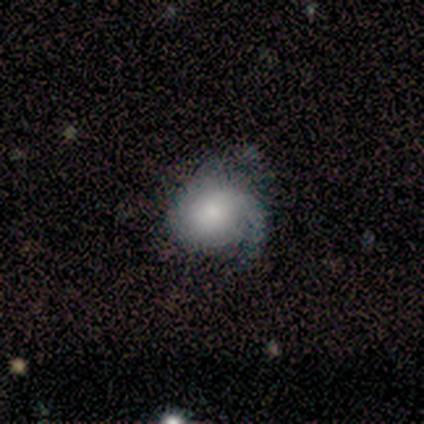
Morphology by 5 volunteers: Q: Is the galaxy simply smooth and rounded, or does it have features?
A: featured or disk — 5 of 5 (100%).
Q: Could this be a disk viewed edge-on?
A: no — 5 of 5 (100%).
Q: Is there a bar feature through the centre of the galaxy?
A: no — 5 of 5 (100%).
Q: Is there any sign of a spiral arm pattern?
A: yes — 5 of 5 (100%).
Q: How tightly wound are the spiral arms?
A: tight — 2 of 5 (40%, tied with loose).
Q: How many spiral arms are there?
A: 2 — 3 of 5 (60%).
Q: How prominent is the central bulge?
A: moderate — 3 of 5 (60%).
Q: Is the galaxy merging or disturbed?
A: minor disturbance — 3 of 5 (60%).